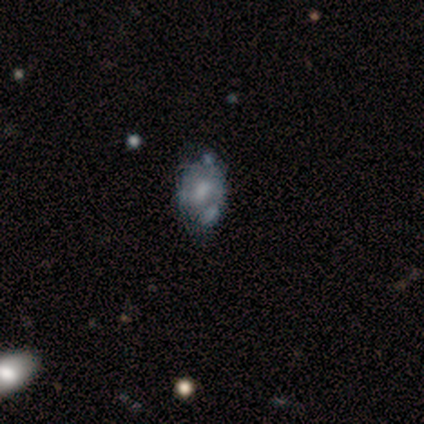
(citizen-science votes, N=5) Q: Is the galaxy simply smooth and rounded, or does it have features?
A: featured or disk — 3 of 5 (60%).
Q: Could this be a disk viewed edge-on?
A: no — 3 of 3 (100%).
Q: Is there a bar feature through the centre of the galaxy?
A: no — 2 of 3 (67%).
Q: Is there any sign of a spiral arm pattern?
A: yes — 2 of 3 (67%).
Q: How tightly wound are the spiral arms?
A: medium — 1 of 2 (50%, tied with loose).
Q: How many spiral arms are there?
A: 2 — 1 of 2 (50%, tied with can't tell).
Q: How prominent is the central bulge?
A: moderate — 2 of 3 (67%).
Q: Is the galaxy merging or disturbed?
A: none — 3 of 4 (75%).